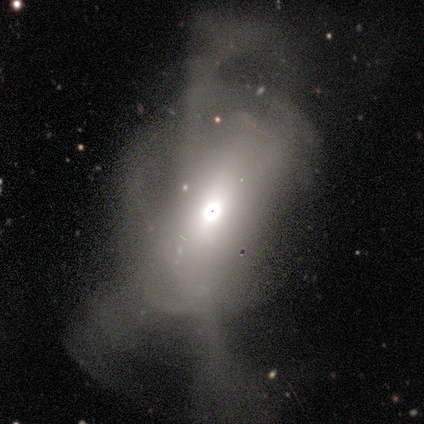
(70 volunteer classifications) Smooth or featured? 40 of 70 (57%) said featured or disk. Edge-on disk? 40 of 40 (100%) said no. Bar? 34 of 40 (85%) said no. Spiral arms? 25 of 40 (62%) said no. Bulge size? 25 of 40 (62%) said moderate. Merging? 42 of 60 (70%) said major disturbance.